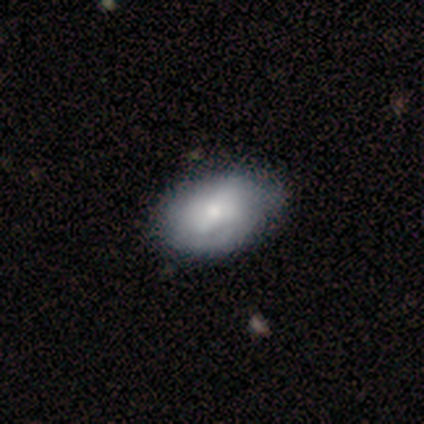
smooth 60%, featured or disk 40%, star or artifact 0%. Down the decision tree: how rounded — in between (83%); merging — none (50%).